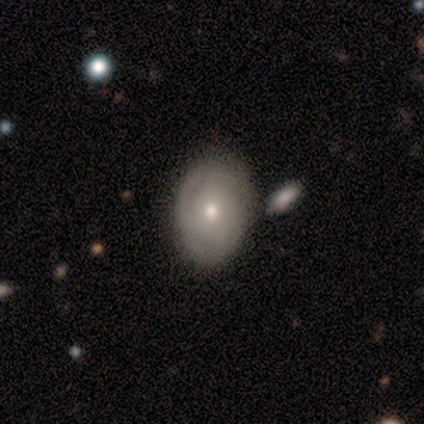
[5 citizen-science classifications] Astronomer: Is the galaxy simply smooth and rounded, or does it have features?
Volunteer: featured or disk — 80%.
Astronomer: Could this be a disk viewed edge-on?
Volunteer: no — 100%.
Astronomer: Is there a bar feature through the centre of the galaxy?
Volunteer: no — 75%.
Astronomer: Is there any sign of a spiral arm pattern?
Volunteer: yes — 50%, tied with no at 50%.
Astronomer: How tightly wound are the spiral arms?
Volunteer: tight — 100%.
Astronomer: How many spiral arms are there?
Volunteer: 2 — 50%, tied with can't tell at 50%.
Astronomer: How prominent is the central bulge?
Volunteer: small — 100%.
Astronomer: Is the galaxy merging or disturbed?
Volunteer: none — 100%.